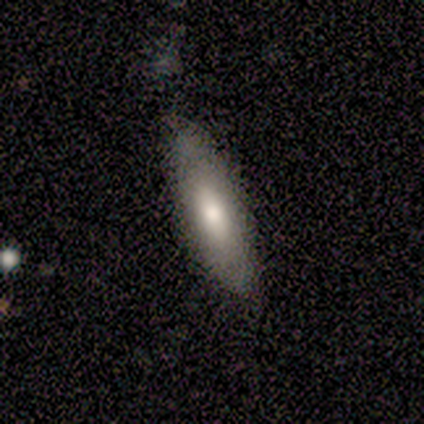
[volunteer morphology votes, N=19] smooth 68%, featured or disk 26%, star or artifact 5%. Down the decision tree: how rounded — in between (62%); merging — none (83%).